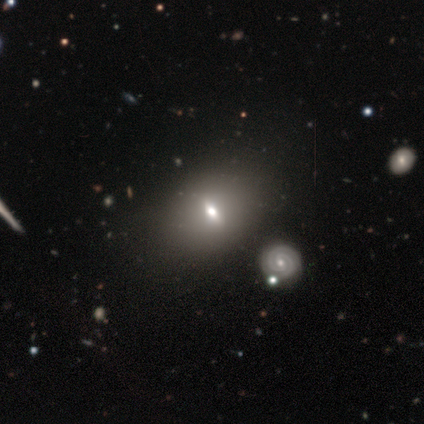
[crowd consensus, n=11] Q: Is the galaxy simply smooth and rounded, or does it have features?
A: featured or disk — 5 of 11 (45%).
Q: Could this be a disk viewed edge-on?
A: no — 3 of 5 (60%).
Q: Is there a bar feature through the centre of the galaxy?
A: weak — 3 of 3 (100%).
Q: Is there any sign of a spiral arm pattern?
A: no — 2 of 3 (67%).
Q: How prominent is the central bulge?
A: moderate — 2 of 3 (67%).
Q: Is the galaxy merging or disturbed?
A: none — 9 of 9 (100%).